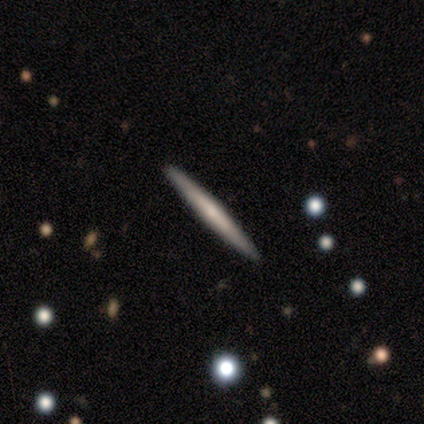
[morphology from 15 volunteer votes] featured or disk 60%, smooth 33%, star or artifact 7%. Down the decision tree: edge-on disk — yes (100%); edge-on bulge — none (44%, tied with rounded); merging — none (100%).